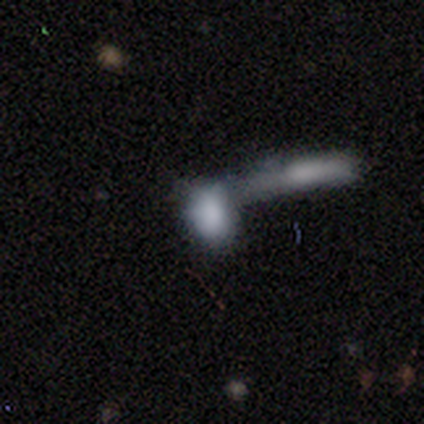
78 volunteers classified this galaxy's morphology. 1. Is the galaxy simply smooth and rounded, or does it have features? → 79% smooth, 14% featured or disk, 6% star or artifact.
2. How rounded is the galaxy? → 84% in between, 13% round, 3% cigar-shaped.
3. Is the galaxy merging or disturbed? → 63% merger, 4% none, 3% minor disturbance, 3% major disturbance.